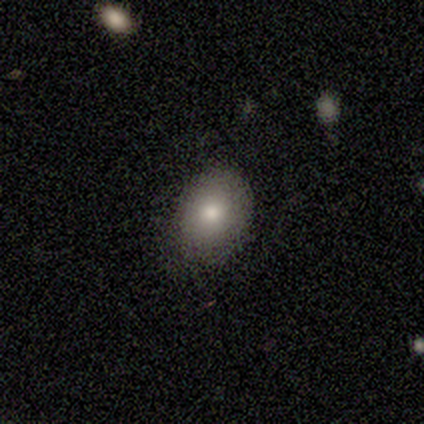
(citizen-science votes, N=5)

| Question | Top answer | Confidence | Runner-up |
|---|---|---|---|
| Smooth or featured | smooth | 100% | — |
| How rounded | round | 60% | in between (40%) |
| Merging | minor disturbance | 60% | none (40%) |